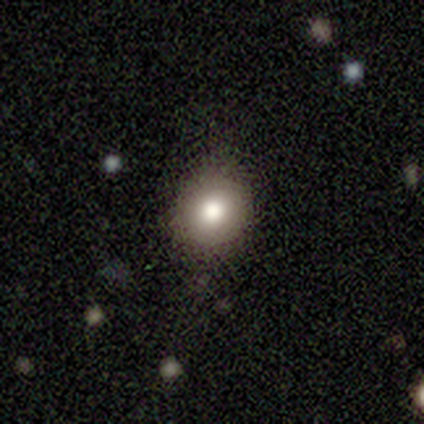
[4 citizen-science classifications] Smooth or featured? 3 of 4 (75%) said smooth. How rounded? 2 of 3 (67%) said round. Merging? 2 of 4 (50%, tied with minor disturbance) said none.